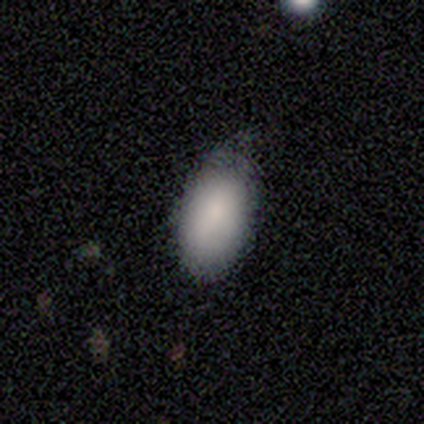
Smooth or featured: smooth — 80% (star or artifact — 20%)
How rounded: in between — 100%
Merging: none — 75% (minor disturbance — 25%)